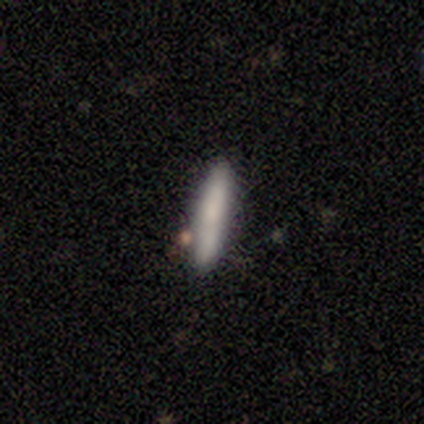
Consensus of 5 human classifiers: Overall: smooth (80%). How rounded: cigar-shaped (100%). Merging: none (60%; minor disturbance 40%).